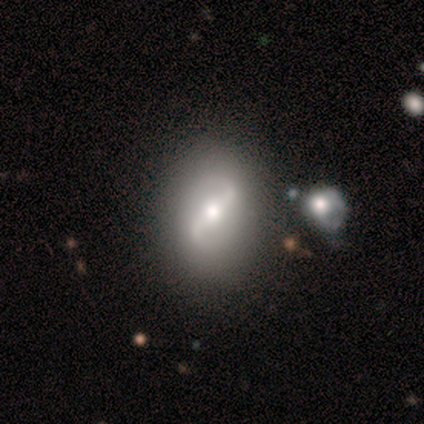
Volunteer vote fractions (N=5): This is likely a featured or disk galaxy (60%). It is clearly not viewed edge-on (100%). Bar: clearly strong (100%). Spiral arm pattern: likely yes (67%). Spiral arm count: clearly 2 (100%). Spiral winding: possibly medium (50%, tied with loose). Central bulge: likely moderate (67%). Merging: clearly none (100%).